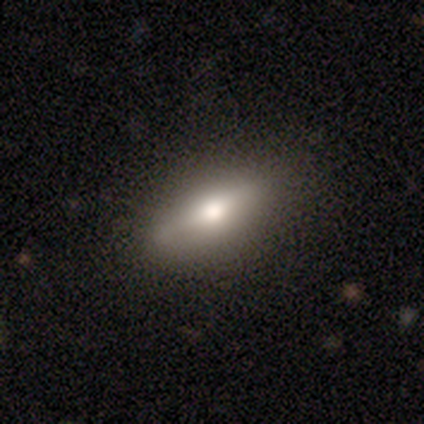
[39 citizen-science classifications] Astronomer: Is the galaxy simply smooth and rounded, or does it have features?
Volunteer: smooth — 67%.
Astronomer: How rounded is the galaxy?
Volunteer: in between — 81%.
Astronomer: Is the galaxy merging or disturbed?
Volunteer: none — 89%.